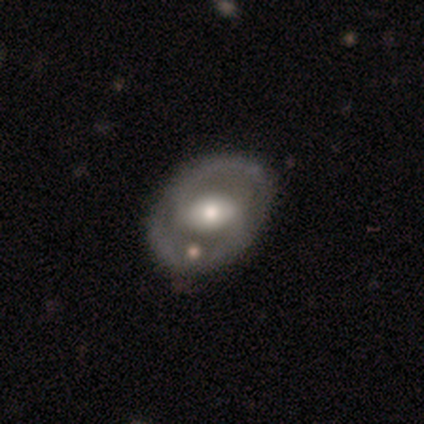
Volunteers were most divided on "bar": strong: 41%, weak: 29%, no: 29%. More confident: edge-on disk — no (100%); spiral arm count — 2 (96%); smooth or featured — featured or disk (85%); spiral arms — yes (74%); spiral winding — medium (56%); merging — none (54%); bulge size — moderate (53%).